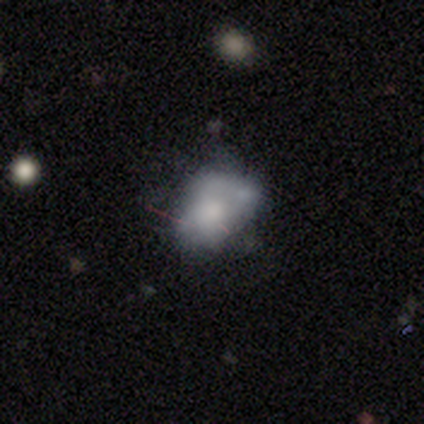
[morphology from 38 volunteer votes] Q: Smooth or featured?
A: smooth (55%); runner-up: featured or disk (34%)
Q: How rounded?
A: in between (81%); runner-up: round (14%)
Q: Merging?
A: none (35%); runner-up: merger (29%)